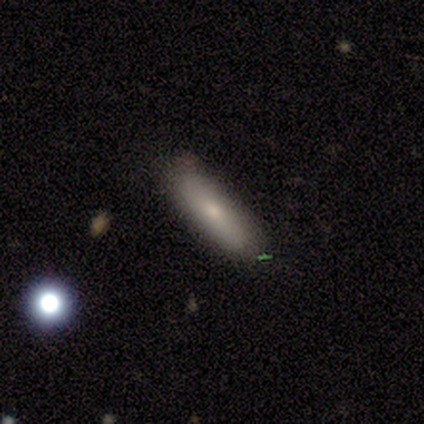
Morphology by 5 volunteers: type=smooth (100%); roundness=in between (60%); merging=none (100%).